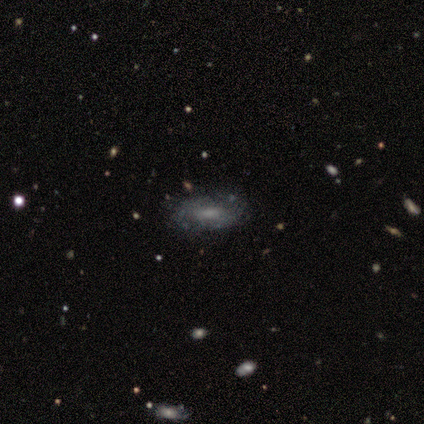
Q: Smooth or featured?
A: smooth (60%); runner-up: featured or disk (40%)
Q: How rounded?
A: in between (67%); runner-up: cigar-shaped (33%)
Q: Merging?
A: none (60%); runner-up: minor disturbance (20%)